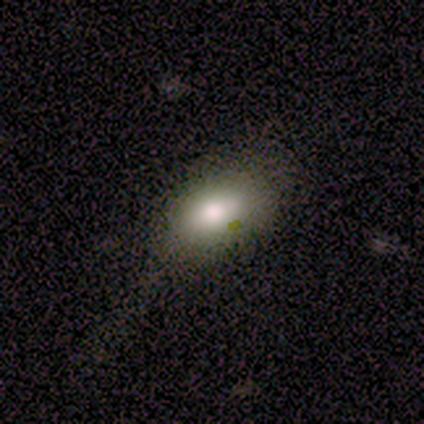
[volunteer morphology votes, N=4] Smooth or featured: featured or disk — 75% (smooth — 25%)
Edge-on disk: no — 100%
Bar: no — 67% (weak — 33%)
Spiral arms: no — 100%
Bulge size: large — 67% (moderate — 33%)
Merging: none — 50% (tied with minor disturbance — 50%)